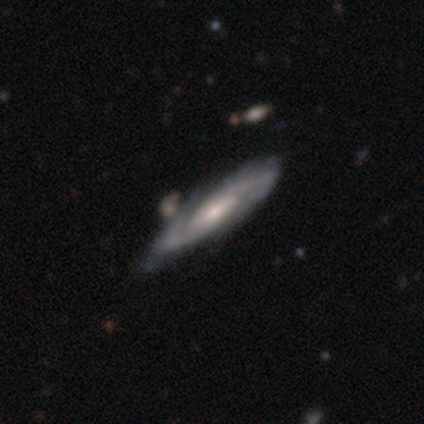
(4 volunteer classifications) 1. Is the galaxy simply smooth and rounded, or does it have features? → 100% featured or disk, 0% smooth, 0% star or artifact.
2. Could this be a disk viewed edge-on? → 75% no, 25% yes.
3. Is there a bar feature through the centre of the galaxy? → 100% no, 0% strong, 0% weak.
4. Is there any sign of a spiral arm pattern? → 100% yes, 0% no.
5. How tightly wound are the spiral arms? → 67% medium, 33% tight, 0% loose.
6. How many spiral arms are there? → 67% 2, 33% 1, 0% 3, 0% 4, 0% more than 4, 0% can't tell.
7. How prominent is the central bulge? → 33% dominant (tied), 33% moderate (tied), 33% small (tied), 0% large, 0% none.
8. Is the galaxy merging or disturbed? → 50% none (tied), 50% minor disturbance (tied), 0% major disturbance, 0% merger.